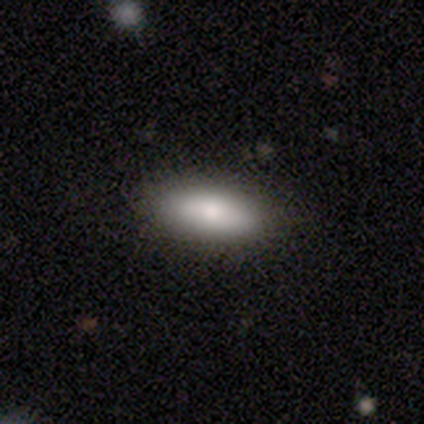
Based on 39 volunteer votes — Smooth or featured: smooth — 87% (featured or disk — 8%)
How rounded: in between — 79% (cigar-shaped — 21%)
Merging: none — 57% (minor disturbance — 5%)